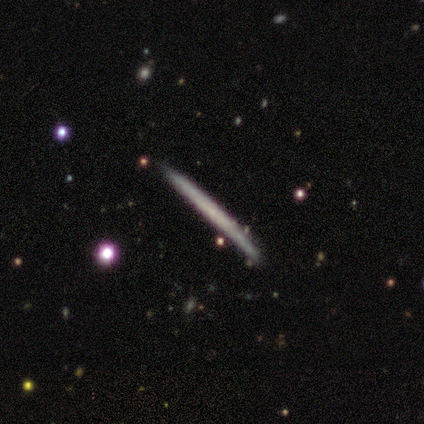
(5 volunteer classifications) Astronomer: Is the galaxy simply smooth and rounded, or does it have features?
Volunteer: featured or disk — 80%.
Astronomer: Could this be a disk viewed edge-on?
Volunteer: yes — 100%.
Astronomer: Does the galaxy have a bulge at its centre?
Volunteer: none — 100%.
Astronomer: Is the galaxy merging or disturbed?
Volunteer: none — 80%.